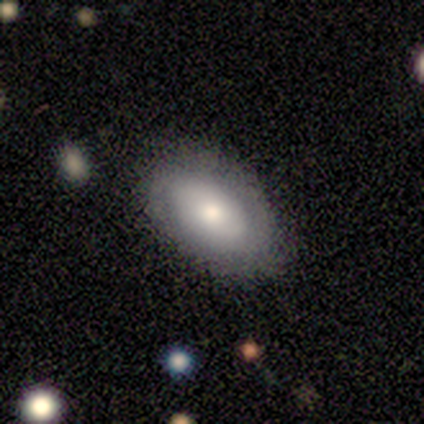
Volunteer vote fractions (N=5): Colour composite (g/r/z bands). It shows a featured or disk galaxy (60%) with no bar (100%), 2 (100%) tight (50%, tied with loose) spiral arms (67%) and a moderate central bulge (67%). Merging: none (80%).